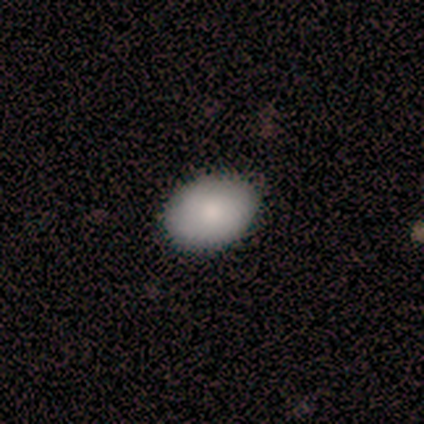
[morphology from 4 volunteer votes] Volunteers were most divided on "how rounded": in between: 75%, round: 25%, cigar-shaped: 0%. More confident: smooth or featured — smooth (100%); merging — none (100%).